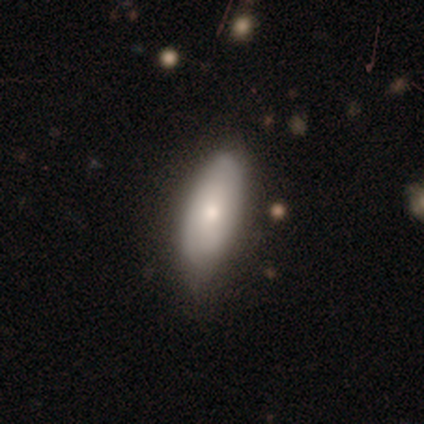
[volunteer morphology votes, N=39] This appears to be a smooth galaxy with no disk features (62%) that is in between round and cigar-shaped (71%). Merging: none (69%).